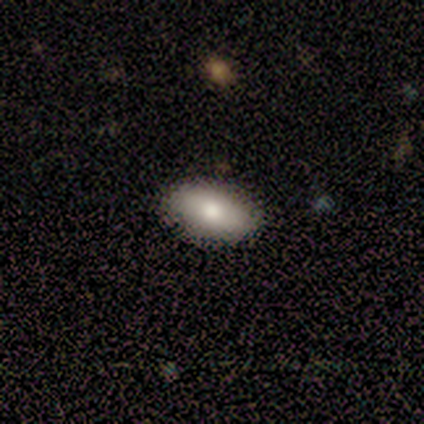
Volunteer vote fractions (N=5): smooth-or-featured: smooth: 80% | featured or disk: 20% | star or artifact: 0%
  how-rounded: in between: 100% | round: 0% | cigar-shaped: 0%
  merging: none: 100% | minor disturbance: 0% | major disturbance: 0% | merger: 0%